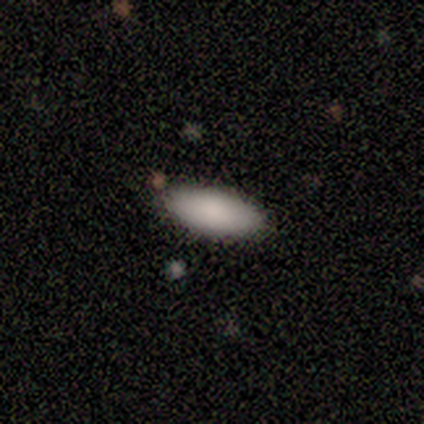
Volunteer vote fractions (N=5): Smooth or featured? smooth (100%)
How rounded? in between (100%)
Merging? none (100%)